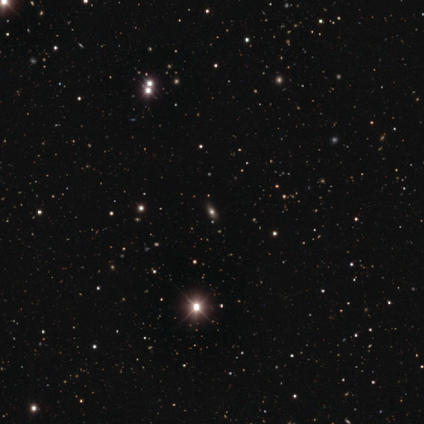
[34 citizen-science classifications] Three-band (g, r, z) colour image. It shows a star or artifact, not a galaxy (65%).